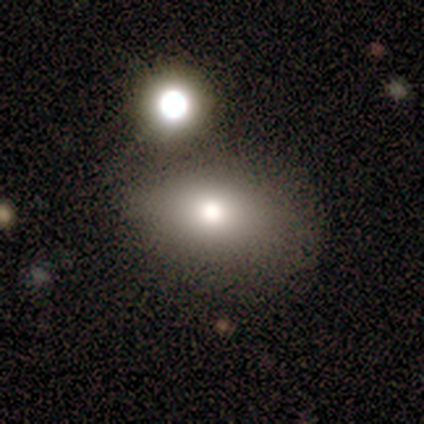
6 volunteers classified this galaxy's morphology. Smooth or featured? 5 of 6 (83%) said smooth. How rounded? 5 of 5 (100%) said in between. Merging? 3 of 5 (60%) said none.